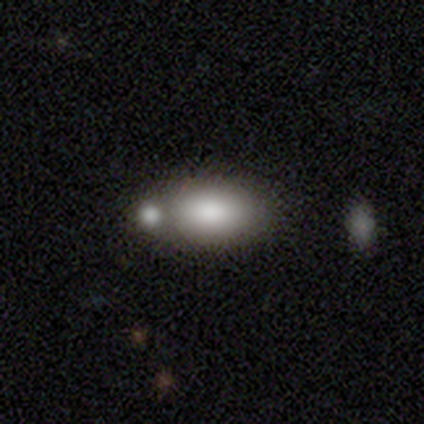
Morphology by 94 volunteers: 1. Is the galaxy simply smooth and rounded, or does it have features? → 83% smooth, 13% featured or disk, 4% star or artifact.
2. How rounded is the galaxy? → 94% in between, 4% cigar-shaped, 3% round.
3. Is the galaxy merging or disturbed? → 41% none, 39% merger, 17% minor disturbance, 3% major disturbance.